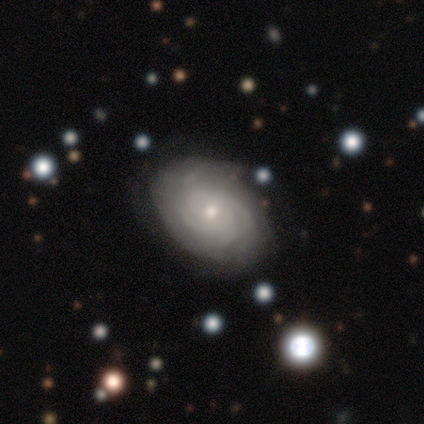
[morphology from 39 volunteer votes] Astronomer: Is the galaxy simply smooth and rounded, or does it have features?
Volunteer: featured or disk — 85%.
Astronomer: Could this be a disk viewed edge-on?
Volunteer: no — 100%.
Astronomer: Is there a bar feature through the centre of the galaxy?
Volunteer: no — 73%.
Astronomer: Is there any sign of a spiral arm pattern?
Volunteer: yes — 94%.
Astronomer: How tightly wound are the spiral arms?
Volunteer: tight — 81%.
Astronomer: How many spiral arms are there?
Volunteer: can't tell — 35% (runner-up: 3, 23%).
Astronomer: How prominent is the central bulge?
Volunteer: small — 55% (runner-up: moderate, 39%).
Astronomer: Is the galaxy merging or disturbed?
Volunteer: none — 87%.